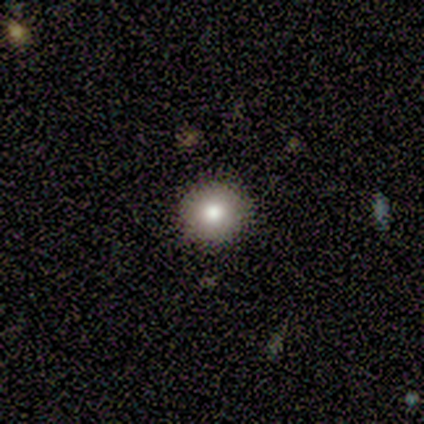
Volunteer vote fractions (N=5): Smooth or featured? 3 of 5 (60%) said smooth. How rounded? 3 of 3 (100%) said round. Merging? 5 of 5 (100%) said none.